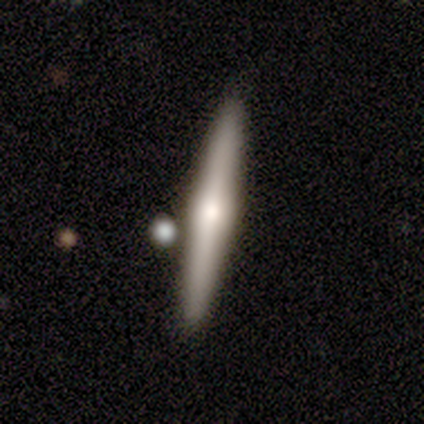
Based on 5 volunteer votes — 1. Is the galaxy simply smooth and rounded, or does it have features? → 60% featured or disk, 40% smooth, 0% star or artifact.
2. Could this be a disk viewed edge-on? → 100% yes, 0% no.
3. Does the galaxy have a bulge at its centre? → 100% rounded, 0% boxy, 0% none.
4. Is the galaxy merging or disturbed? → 60% merger, 40% none, 0% minor disturbance, 0% major disturbance.